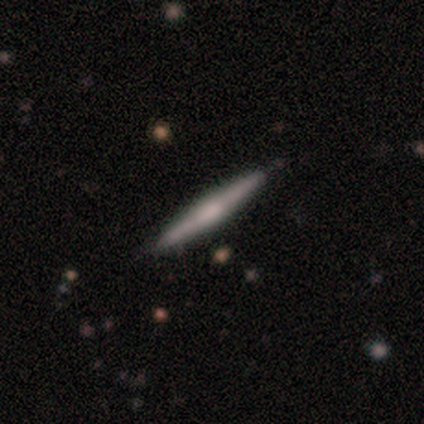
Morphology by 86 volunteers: This appears to be a featured or disk galaxy (58%) viewed edge-on (96%) with a rounded central bulge (48%). Merging: none (85%).